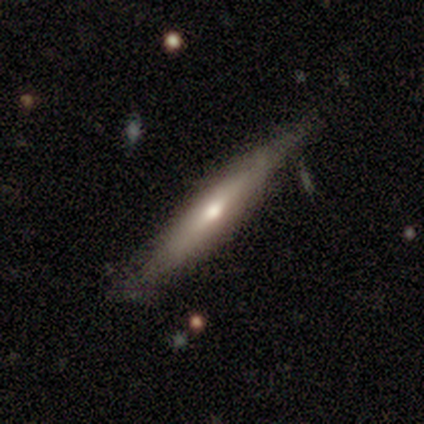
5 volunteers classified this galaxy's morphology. smooth_or_featured: smooth (p=0.60) [alt: featured or disk p=0.40]
how_rounded: cigar-shaped (p=1.00)
merging: none (p=0.80) [alt: minor disturbance p=0.20]